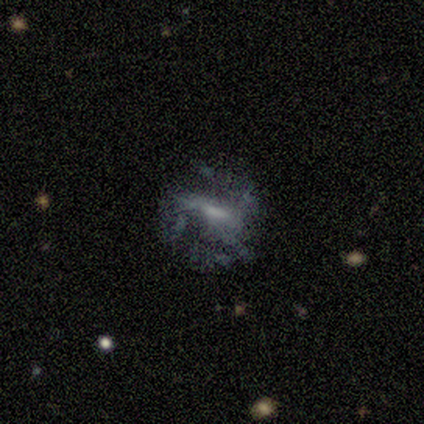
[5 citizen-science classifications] Smooth or featured? 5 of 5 (100%) said featured or disk. Edge-on disk? 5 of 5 (100%) said no. Bar? 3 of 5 (60%) said weak. Spiral arms? 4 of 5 (80%) said no. Bulge size? 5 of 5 (100%) said small. Merging? 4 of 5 (80%) said none.